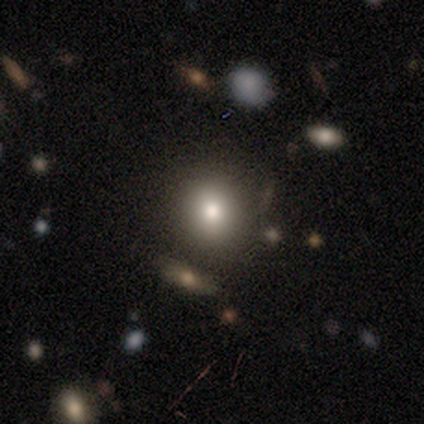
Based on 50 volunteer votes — Volunteers were most divided on "smooth or featured": smooth: 72%, star or artifact: 24%, featured or disk: 4%. More confident: merging — none (89%); how rounded — round (81%).